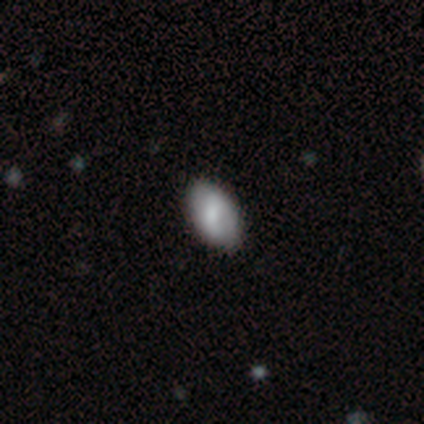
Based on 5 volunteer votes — Smooth or featured? 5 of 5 (100%) said smooth. How rounded? 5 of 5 (100%) said in between. Merging? 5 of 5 (100%) said none.